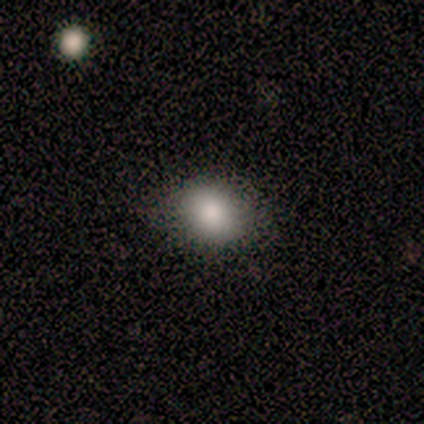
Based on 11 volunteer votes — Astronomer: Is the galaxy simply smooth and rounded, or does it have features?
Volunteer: smooth — 91%.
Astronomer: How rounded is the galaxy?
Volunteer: round — 50%, tied with in between at 50%.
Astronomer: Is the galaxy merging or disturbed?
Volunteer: none — 82%.